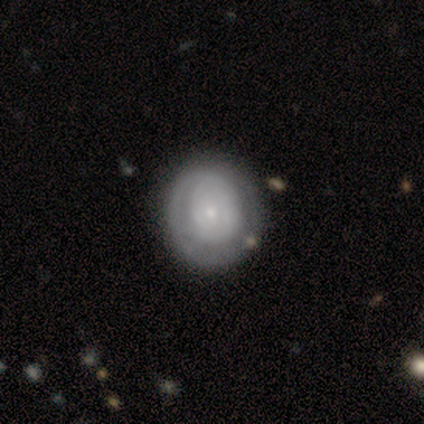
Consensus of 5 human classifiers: Morphology: type=smooth (80%); roundness=round (100%); merging=none (40%, tied with major disturbance).